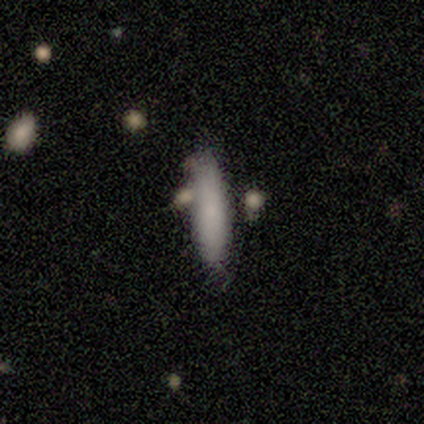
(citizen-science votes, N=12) Smooth or featured? 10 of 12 (83%) said smooth. How rounded? 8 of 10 (80%) said cigar-shaped. Merging? 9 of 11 (82%) said none.